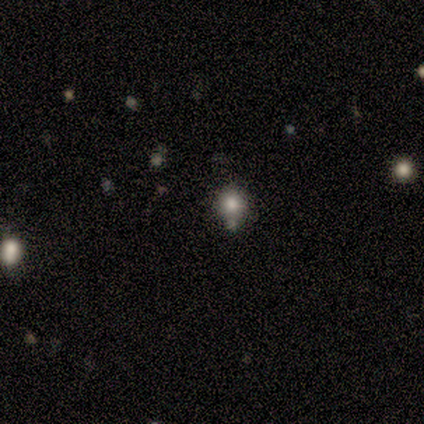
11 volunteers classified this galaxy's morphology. A smooth galaxy with no disk features (82%) that is round (89%).

Vote fractions:
- Smooth or featured? smooth: 82% / featured or disk: 9% / star or artifact: 9%
- How rounded? round: 89% / in between: 11% / cigar-shaped: 0%
- Merging? none: 50% / minor disturbance: 20% / merger: 20% / major disturbance: 10%